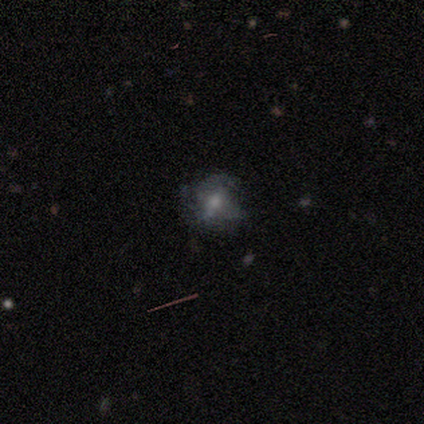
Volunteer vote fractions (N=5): This is marginally a smooth galaxy (40%, tied with star or artifact). How rounded: clearly in between (100%). Merging: likely none (67%).